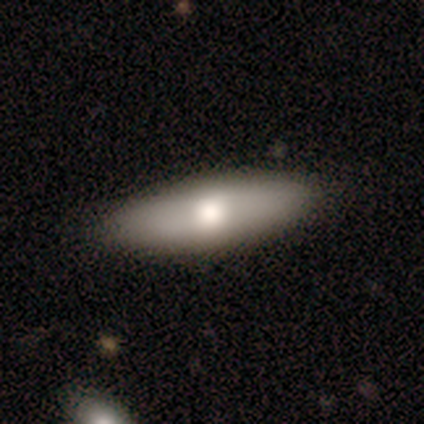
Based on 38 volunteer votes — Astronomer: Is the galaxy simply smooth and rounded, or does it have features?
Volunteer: smooth — 76%.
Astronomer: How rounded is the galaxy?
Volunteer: in between — 62% (runner-up: cigar-shaped, 38%).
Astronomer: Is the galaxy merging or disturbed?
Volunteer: none — 86%.